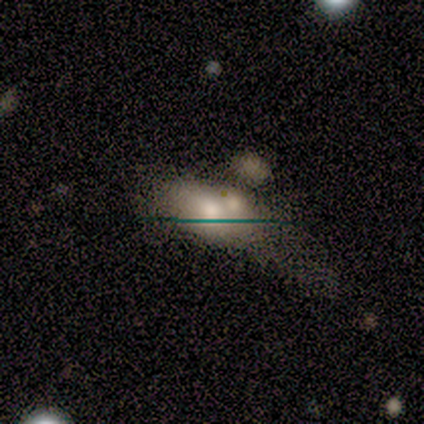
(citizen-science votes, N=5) This is marginally a smooth galaxy (40%, tied with star or artifact). How rounded: clearly in between (100%). Merging: likely none (67%).